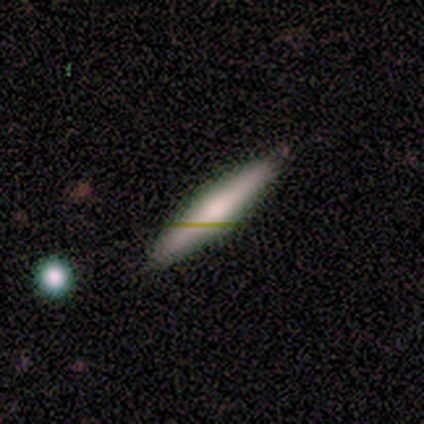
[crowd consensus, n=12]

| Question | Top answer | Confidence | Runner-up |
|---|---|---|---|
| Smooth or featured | smooth | 58% | featured or disk (42%) |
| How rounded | cigar-shaped | 86% | in between (14%) |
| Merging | none | 100% | — |